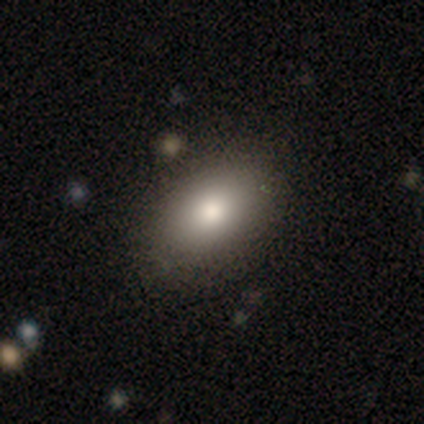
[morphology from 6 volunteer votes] Volunteers were most divided on "merging": none: 83%, minor disturbance: 17%, major disturbance: 0%, merger: 0%. More confident: smooth or featured — smooth (100%); how rounded — in between (100%).